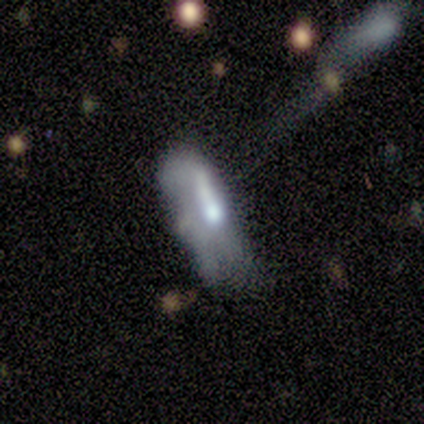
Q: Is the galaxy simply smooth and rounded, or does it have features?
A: featured or disk — 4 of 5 (80%).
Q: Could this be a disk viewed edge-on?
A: no — 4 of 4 (100%).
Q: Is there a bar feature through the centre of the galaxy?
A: weak — 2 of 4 (50%).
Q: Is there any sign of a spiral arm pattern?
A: no — 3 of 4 (75%).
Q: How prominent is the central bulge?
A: moderate — 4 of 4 (100%).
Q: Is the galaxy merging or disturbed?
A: minor disturbance — 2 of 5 (40%).